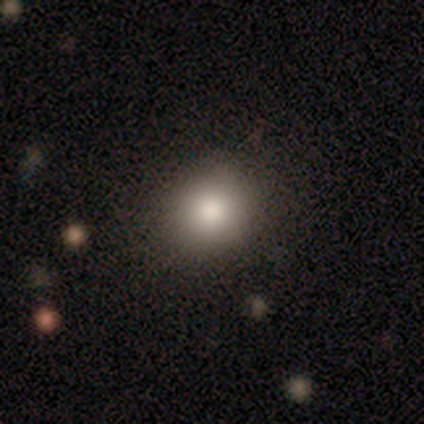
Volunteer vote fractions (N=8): Smooth or featured: smooth — 75% (featured or disk — 25%)
How rounded: round — 50% (tied with in between — 50%)
Merging: none — 62% (minor disturbance — 25%)